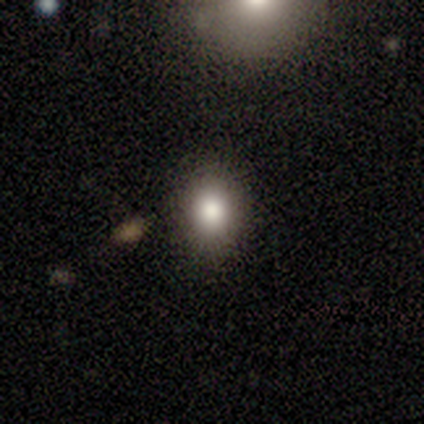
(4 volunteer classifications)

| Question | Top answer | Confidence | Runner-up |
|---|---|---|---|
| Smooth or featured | smooth | 100% | — |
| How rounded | in between | 75% | round (25%) |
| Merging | none | 100% | — |